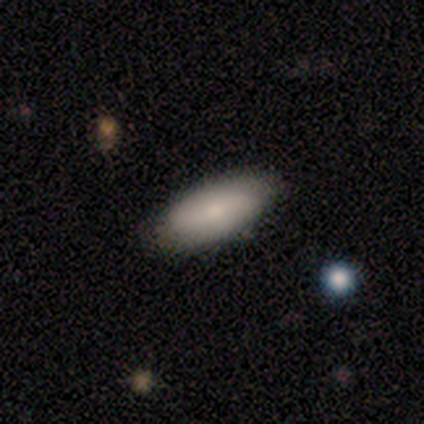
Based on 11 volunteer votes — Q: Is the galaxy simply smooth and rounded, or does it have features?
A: smooth — 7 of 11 (64%).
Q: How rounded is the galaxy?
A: in between — 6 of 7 (86%).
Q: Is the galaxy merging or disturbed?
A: none — 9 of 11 (82%).